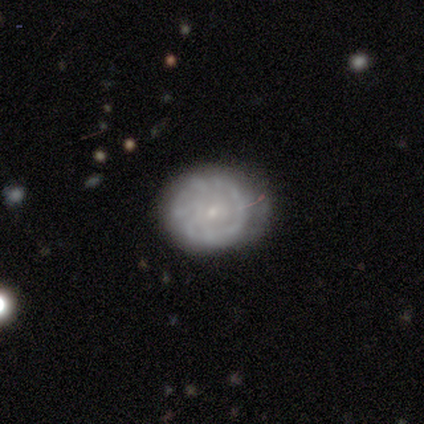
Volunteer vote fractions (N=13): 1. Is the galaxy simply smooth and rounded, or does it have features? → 69% featured or disk, 23% smooth, 8% star or artifact.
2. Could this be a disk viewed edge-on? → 100% no, 0% yes.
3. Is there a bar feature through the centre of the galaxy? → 89% no, 11% weak, 0% strong.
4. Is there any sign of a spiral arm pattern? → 56% no, 44% yes.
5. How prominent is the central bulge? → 100% small, 0% dominant, 0% large, 0% moderate, 0% none.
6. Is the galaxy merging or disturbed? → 50% minor disturbance, 25% none, 25% major disturbance, 0% merger.